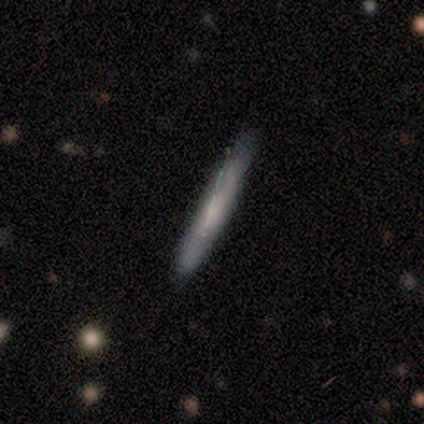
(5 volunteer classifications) Volunteers were most divided on "smooth or featured": smooth: 60%, featured or disk: 40%, star or artifact: 0%. More confident: how rounded — cigar-shaped (100%); merging — none (80%).